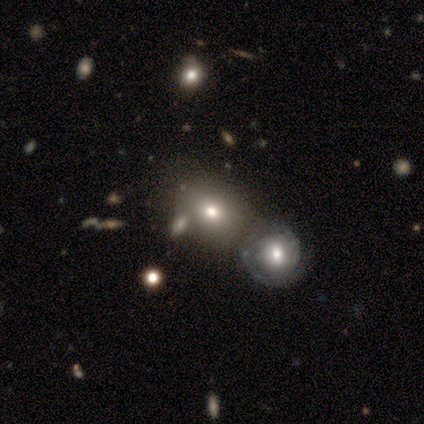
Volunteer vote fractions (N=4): Q: Smooth or featured?
A: smooth (50%); tied with: star or artifact (50%)
Q: How rounded?
A: round (50%); tied with: in between (50%)
Q: Merging?
A: major disturbance (50%); tied with: merger (50%)